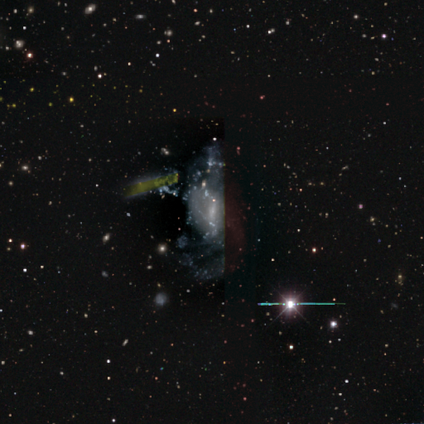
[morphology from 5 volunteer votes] A star or artifact, not a galaxy (60%).

Vote fractions:
- Smooth or featured? star or artifact: 60% / smooth: 20% / featured or disk: 20%